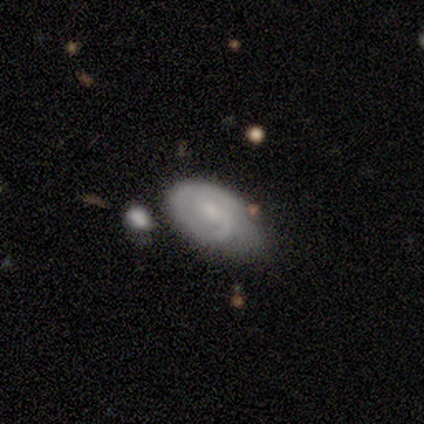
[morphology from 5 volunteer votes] Smooth or featured?
  - featured or disk: 60% *
  - smooth: 40%
  - star or artifact: 0%
Edge-on disk?
  - no: 100% *
  - yes: 0%
Bar?
  - no: 67% *
  - weak: 33%
  - strong: 0%
Spiral arms?
  - yes: 100% *
  - no: 0%
Spiral winding?
  - tight: 67% *
  - loose: 33%
  - medium: 0%
Spiral arm count?
  - can't tell: 100% *
  - 1: 0%
  - 2: 0%
  - 3: 0%
  - 4: 0%
  - more than 4: 0%
Bulge size?
  - small: 100% *
  - dominant: 0%
  - large: 0%
  - moderate: 0%
  - none: 0%
Merging?
  - none: 60% *
  - major disturbance: 20%
  - merger: 20%
  - minor disturbance: 0%